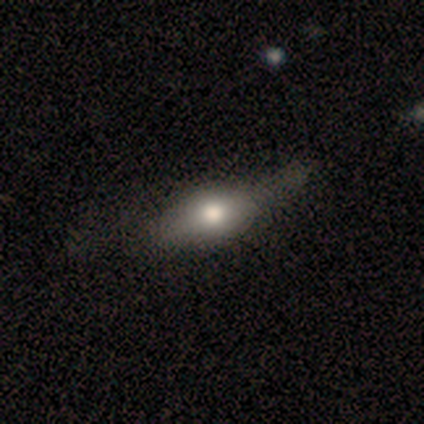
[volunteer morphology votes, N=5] Smooth or featured? 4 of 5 (80%) said smooth. How rounded? 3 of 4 (75%) said in between. Merging? 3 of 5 (60%) said none.